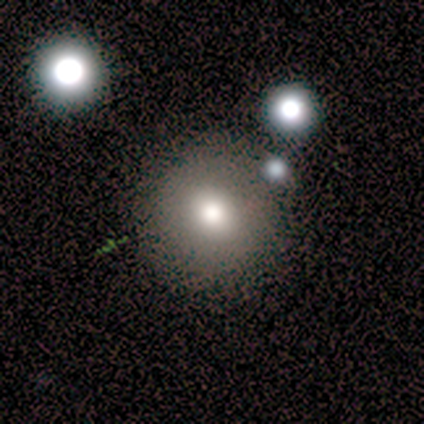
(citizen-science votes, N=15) smooth 80%, star or artifact 13%, featured or disk 7%. Down the decision tree: how rounded — round (92%); merging — none (85%).